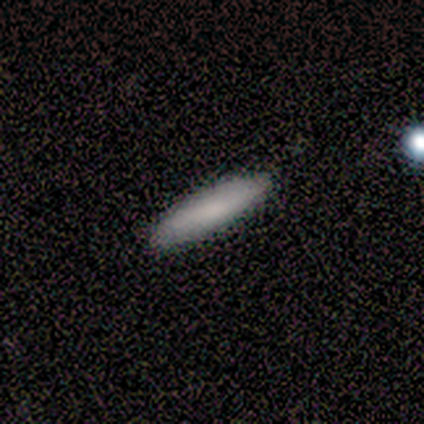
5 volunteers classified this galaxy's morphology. A smooth galaxy with no disk features (60%) that is cigar-shaped (100%). Merging: none (67%).